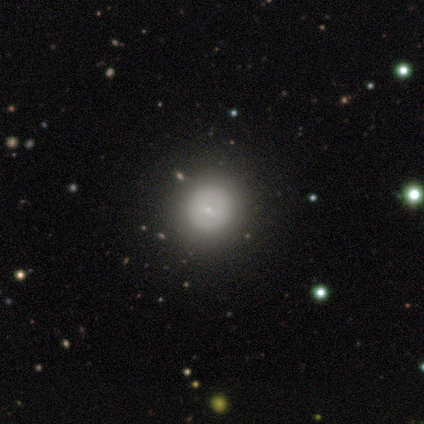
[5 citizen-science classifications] smooth_or_featured: smooth (p=0.60) [alt: featured or disk p=0.40]
how_rounded: round (p=1.00)
merging: none (p=1.00)